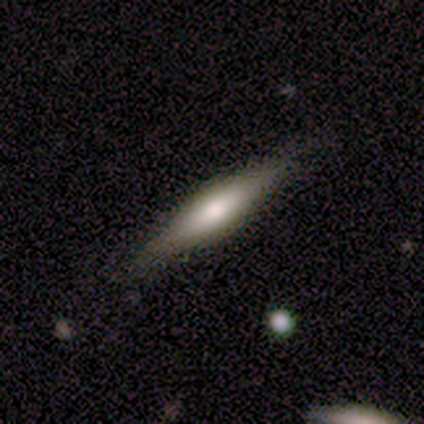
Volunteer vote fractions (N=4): A featured or disk galaxy (75%) viewed edge-on (67%) with a rounded central bulge (100%).

Vote fractions:
- Smooth or featured? featured or disk: 75% / smooth: 25% / star or artifact: 0%
- Edge-on disk? yes: 67% / no: 33%
- Edge-on bulge? rounded: 100% / boxy: 0% / none: 0%
- Merging? none: 75% / minor disturbance: 25% / major disturbance: 0% / merger: 0%